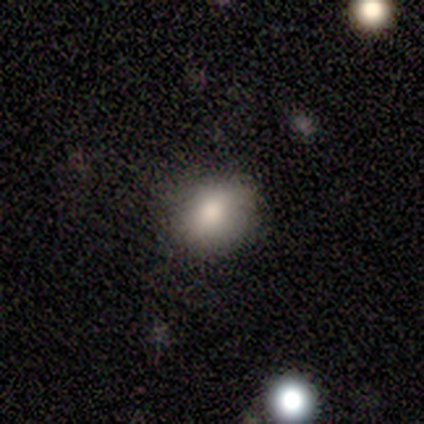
smooth 67%, star or artifact 33%, featured or disk 0%. Down the decision tree: how rounded — round (50%, tied with in between); merging — none (100%).